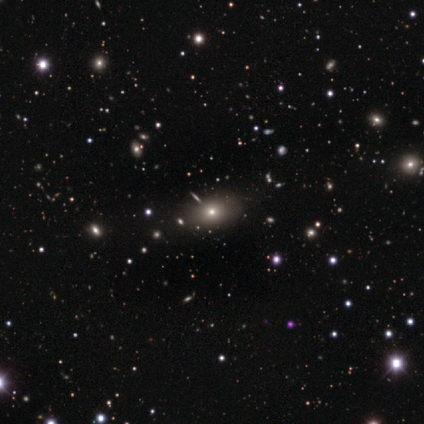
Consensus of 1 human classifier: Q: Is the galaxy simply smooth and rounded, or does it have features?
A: smooth — 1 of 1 (100%).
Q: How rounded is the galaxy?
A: in between — 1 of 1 (100%).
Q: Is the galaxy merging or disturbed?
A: major disturbance — 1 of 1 (100%).